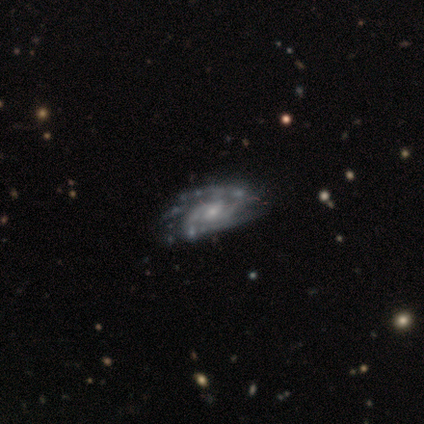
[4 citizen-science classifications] This appears to be a featured or disk galaxy (100%) with no bar (75%), medium (50%) spiral arms (100%) and a moderate central bulge (50%, tied with small). Merging: none (50%, tied with minor disturbance).